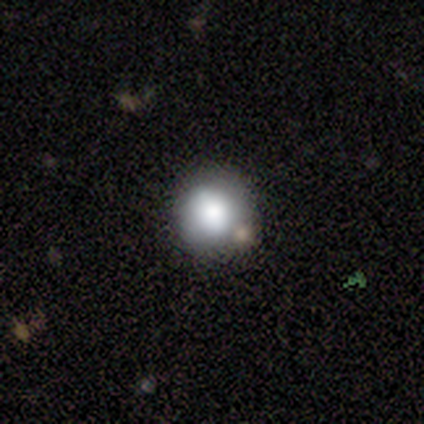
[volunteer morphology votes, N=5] Smooth or featured?
  - smooth: 100% *
  - featured or disk: 0%
  - star or artifact: 0%
How rounded?
  - round: 80% *
  - in between: 20%
  - cigar-shaped: 0%
Merging?
  - none: 60% *
  - minor disturbance: 20%
  - major disturbance: 20%
  - merger: 0%